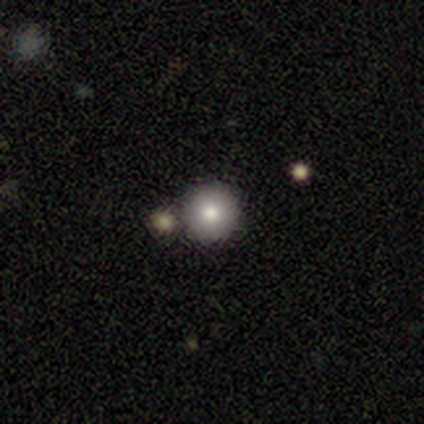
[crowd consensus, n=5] Q: Smooth or featured?
A: smooth (80%); runner-up: star or artifact (20%)
Q: How rounded?
A: round (100%)
Q: Merging?
A: none (50%); tied with: merger (50%)